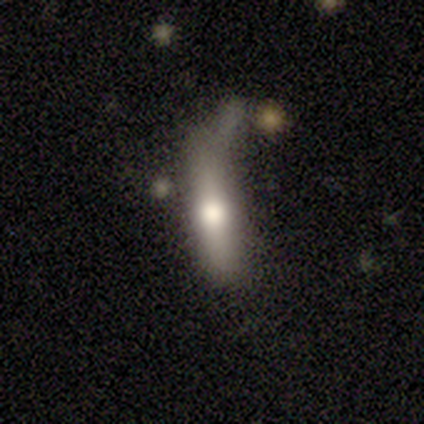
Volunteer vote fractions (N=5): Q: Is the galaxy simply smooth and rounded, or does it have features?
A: smooth — 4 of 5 (80%).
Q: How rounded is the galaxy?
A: in between — 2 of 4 (50%, tied with cigar-shaped).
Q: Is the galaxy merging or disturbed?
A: none — 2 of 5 (40%, tied with minor disturbance).